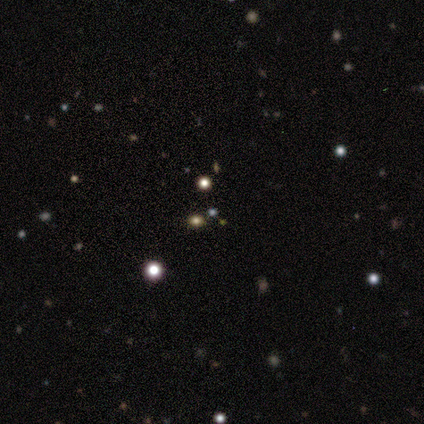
Q: Smooth or featured?
A: star or artifact (100%)